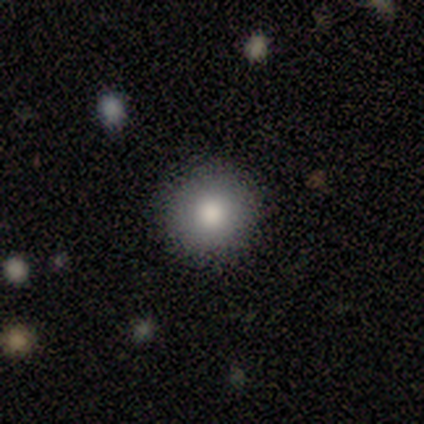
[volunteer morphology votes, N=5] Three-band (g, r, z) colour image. It shows a smooth galaxy with no disk features (100%) that is round (80%). Merging: none (100%).